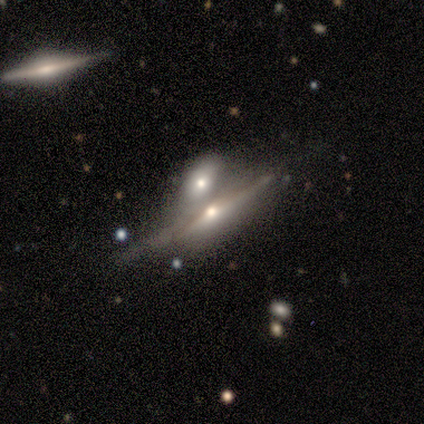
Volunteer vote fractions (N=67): smooth_or_featured: featured or disk (p=0.94) [alt: star or artifact p=0.04]
disk_edge_on: yes (p=0.90) [alt: no p=0.10]
edge_on_bulge: rounded (p=0.91) [alt: boxy p=0.05]
merging: merger (p=0.62) [alt: minor disturbance p=0.17]